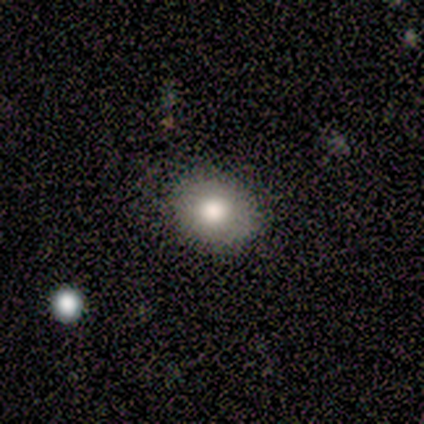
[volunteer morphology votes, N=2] Overall: smooth (100%). How rounded: round (50%, tied with in between). Merging: none (100%).